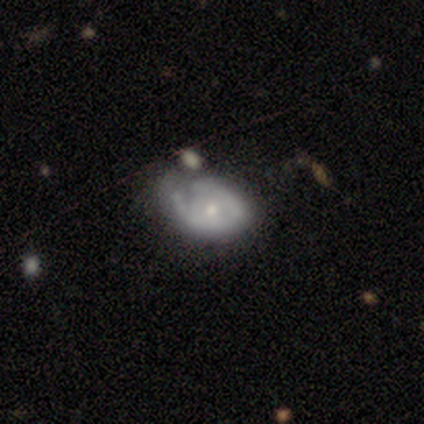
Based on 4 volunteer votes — Smooth or featured?
  - smooth: 50% * (tied)
  - featured or disk: 50% * (tied)
  - star or artifact: 0%
How rounded?
  - in between: 100% *
  - round: 0%
  - cigar-shaped: 0%
Merging?
  - minor disturbance: 75% *
  - major disturbance: 25%
  - none: 0%
  - merger: 0%